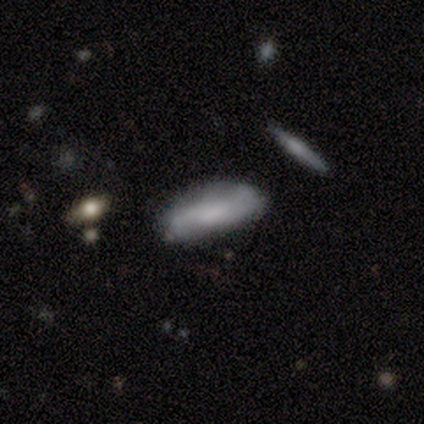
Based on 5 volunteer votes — Smooth or featured? 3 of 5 (60%) said featured or disk. Edge-on disk? 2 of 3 (67%) said no. Bar? 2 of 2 (100%) said no. Spiral arms? 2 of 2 (100%) said no. Bulge size? 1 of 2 (50%, tied with none) said moderate. Merging? 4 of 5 (80%) said none.